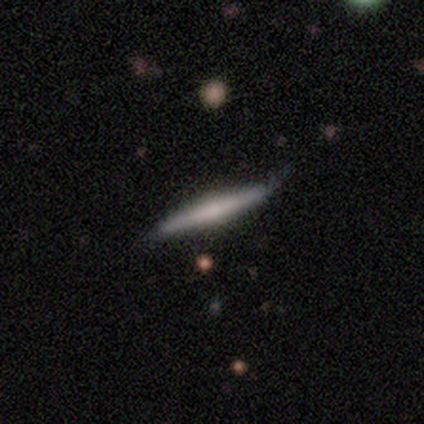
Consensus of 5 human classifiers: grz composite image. It shows a smooth galaxy with no disk features (60%) that is cigar-shaped (100%). Merging: none (60%).